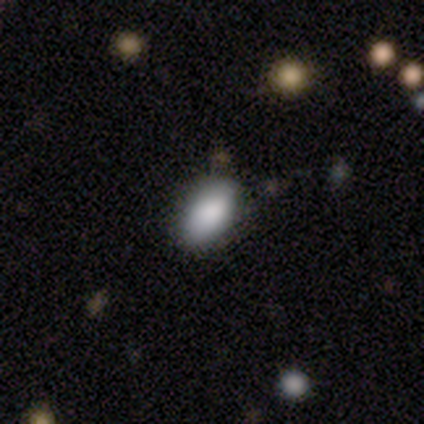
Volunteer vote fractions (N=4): smooth_or_featured: smooth (p=1.00)
how_rounded: in between (p=1.00)
merging: none (p=0.75) [alt: major disturbance p=0.25]